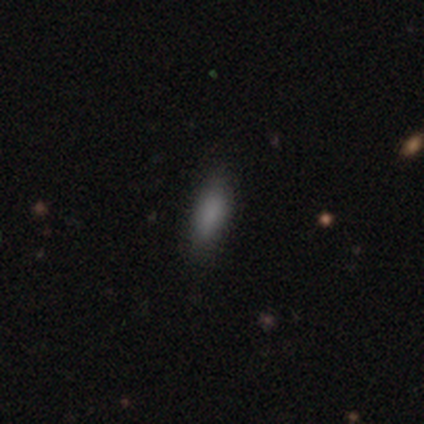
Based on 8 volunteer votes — smooth 75%, featured or disk 25%, star or artifact 0%. Down the decision tree: how rounded — in between (83%); merging — none (75%).